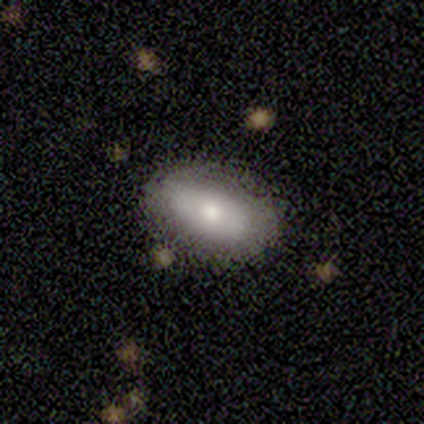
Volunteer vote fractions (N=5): A smooth galaxy with no disk features (40%, tied with featured or disk) that is in between round and cigar-shaped (100%). Merging: none (75%).